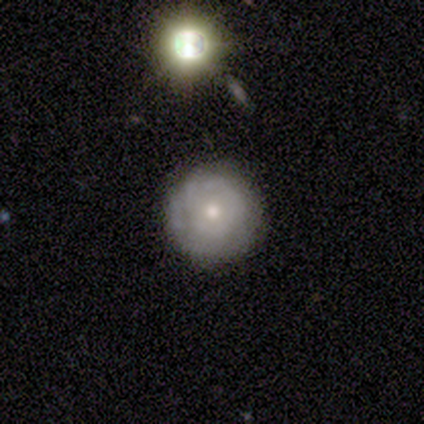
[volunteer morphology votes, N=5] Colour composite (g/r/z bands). It shows a featured or disk galaxy (80%) with no bar (100%), 1 (50%, tied with 4) tight (100%) spiral arms (50%, tied with no) and a moderate central bulge (50%, tied with small). Merging: none (100%).